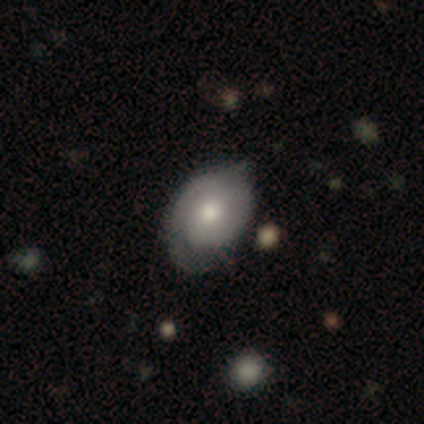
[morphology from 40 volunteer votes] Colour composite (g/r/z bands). It shows a featured or disk galaxy (60%) with no bar (87%), 2 (56%) tight (56%) spiral arms (78%) and a moderate central bulge (70%). Merging: none (42%).